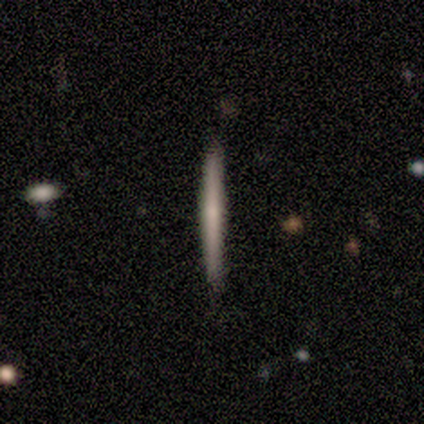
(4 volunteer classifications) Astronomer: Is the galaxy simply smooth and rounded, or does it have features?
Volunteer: smooth — 75%.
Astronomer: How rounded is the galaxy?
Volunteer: cigar-shaped — 100%.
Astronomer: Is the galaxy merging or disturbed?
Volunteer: none — 100%.